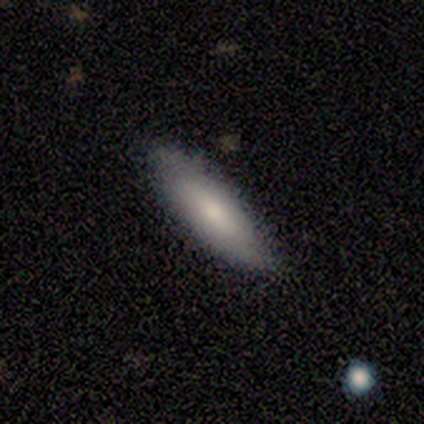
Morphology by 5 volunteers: Smooth or featured? 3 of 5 (60%) said smooth. How rounded? 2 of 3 (67%) said cigar-shaped. Merging? 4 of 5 (80%) said none.